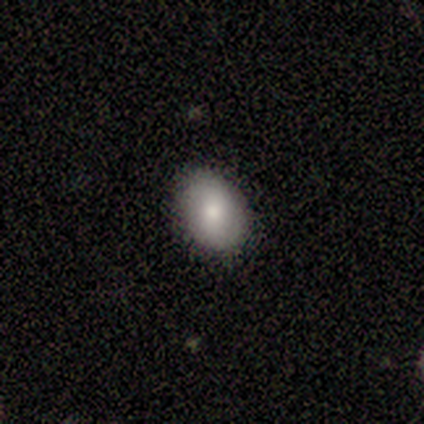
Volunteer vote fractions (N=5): Smooth or featured: smooth — 40% (tied with featured or disk — 40%)
How rounded: in between — 100%
Merging: none — 100%